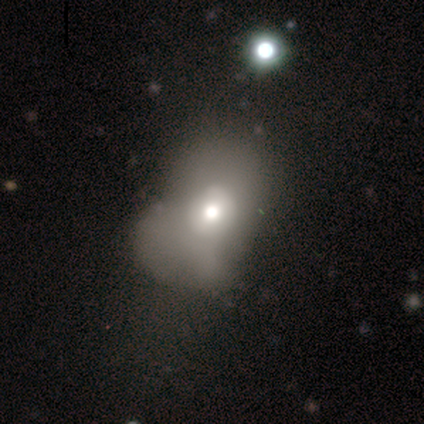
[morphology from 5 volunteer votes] smooth 80%, featured or disk 20%, star or artifact 0%. Down the decision tree: how rounded — in between (100%); merging — major disturbance (100%).